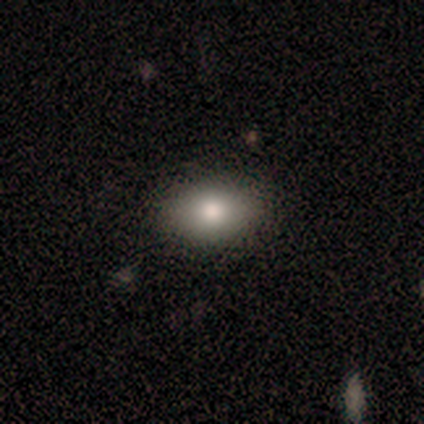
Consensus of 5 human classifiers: This appears to be a smooth galaxy with no disk features (80%) that is in between round and cigar-shaped (75%). Merging: none (100%).